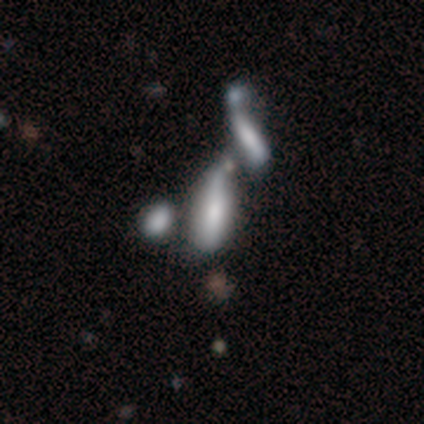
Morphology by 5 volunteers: Q: Smooth or featured?
A: featured or disk (60%); runner-up: smooth (20%)
Q: Edge-on disk?
A: no (100%)
Q: Bar?
A: weak (67%); runner-up: no (33%)
Q: Spiral arms?
A: no (100%)
Q: Bulge size?
A: moderate (100%)
Q: Merging?
A: merger (100%)